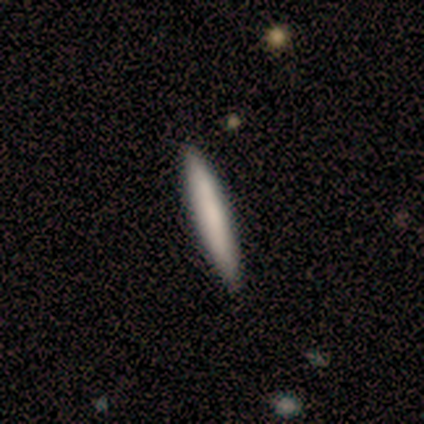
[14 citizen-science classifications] This appears to be a smooth galaxy with no disk features (64%) that is cigar-shaped (100%). Merging: none (100%).